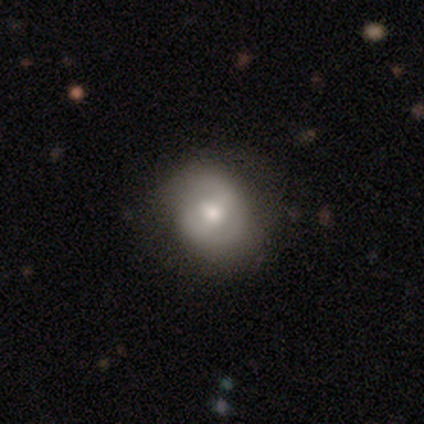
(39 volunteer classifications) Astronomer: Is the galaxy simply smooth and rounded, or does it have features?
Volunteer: smooth — 56% (runner-up: featured or disk, 41%).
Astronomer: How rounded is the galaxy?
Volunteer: round — 68%.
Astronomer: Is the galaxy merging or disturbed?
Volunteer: none — 58%.